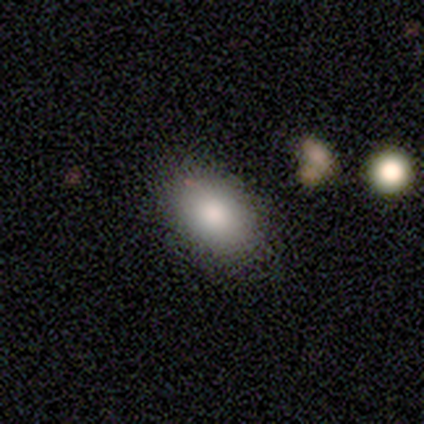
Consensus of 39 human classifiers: A smooth galaxy with no disk features (90%) that is in between round and cigar-shaped (89%).

Vote fractions:
- Smooth or featured? smooth: 90% / featured or disk: 5% / star or artifact: 5%
- How rounded? in between: 89% / round: 11% / cigar-shaped: 0%
- Merging? none: 70% / minor disturbance: 8% / major disturbance: 0% / merger: 0%